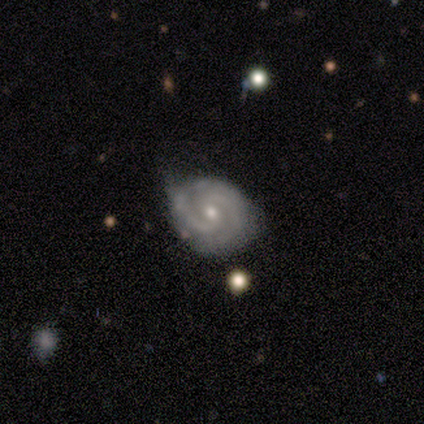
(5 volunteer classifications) Q: Smooth or featured?
A: featured or disk (100%)
Q: Edge-on disk?
A: no (100%)
Q: Bar?
A: no (80%); runner-up: weak (20%)
Q: Spiral arms?
A: yes (100%)
Q: Spiral winding?
A: tight (40%); tied with: medium (40%)
Q: Spiral arm count?
A: 2 (80%); runner-up: 3 (20%)
Q: Bulge size?
A: small (80%); runner-up: moderate (20%)
Q: Merging?
A: minor disturbance (60%); runner-up: none (40%)